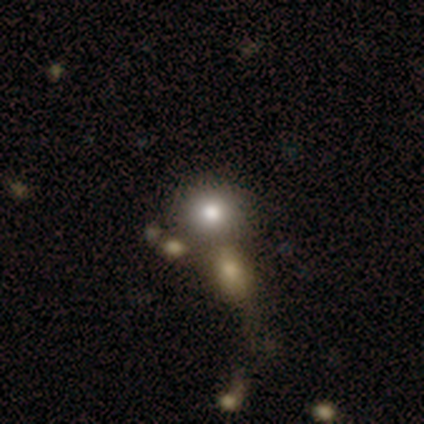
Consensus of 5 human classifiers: Smooth or featured? 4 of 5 (80%) said smooth. How rounded? 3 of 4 (75%) said round. Merging? 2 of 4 (50%) said none.